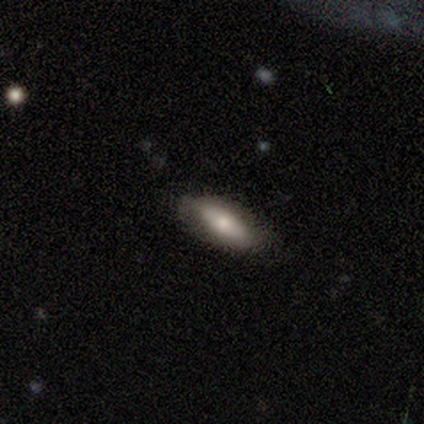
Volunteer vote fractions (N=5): smooth 60%, featured or disk 40%, star or artifact 0%. Down the decision tree: how rounded — in between (100%); merging — none (60%).